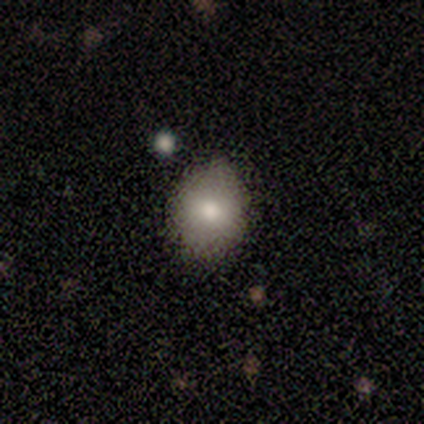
Q: Smooth or featured?
A: smooth (83%); runner-up: featured or disk (17%)
Q: How rounded?
A: round (50%); tied with: in between (50%)
Q: Merging?
A: none (83%); runner-up: minor disturbance (8%)